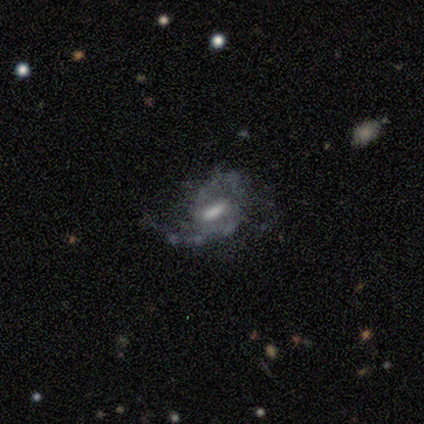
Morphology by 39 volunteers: Smooth or featured: featured or disk — 77% (star or artifact — 15%)
Edge-on disk: no — 97% (yes — 3%)
Bar: weak — 66% (strong — 31%)
Spiral arms: yes — 90% (no — 10%)
Spiral winding: medium — 46% (loose — 31%)
Spiral arm count: 2 — 77% (can't tell — 15%)
Bulge size: moderate — 34% (small — 24%)
Merging: none — 39% (minor disturbance — 36%)